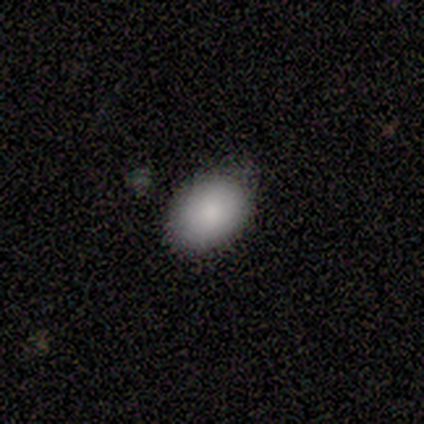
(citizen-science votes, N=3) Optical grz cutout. It shows a smooth galaxy with no disk features (67%) that is in between round and cigar-shaped (100%). Merging: minor disturbance (100%).